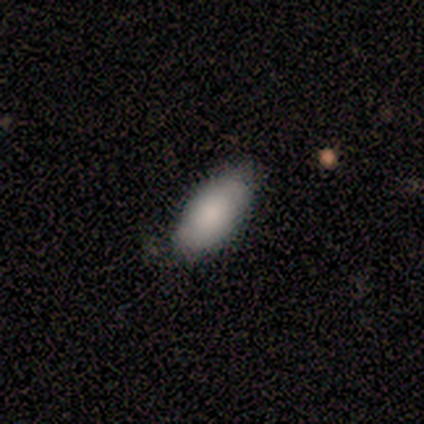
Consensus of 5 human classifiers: Smooth or featured: smooth — 100%
How rounded: in between — 100%
Merging: none — 60% (minor disturbance — 40%)